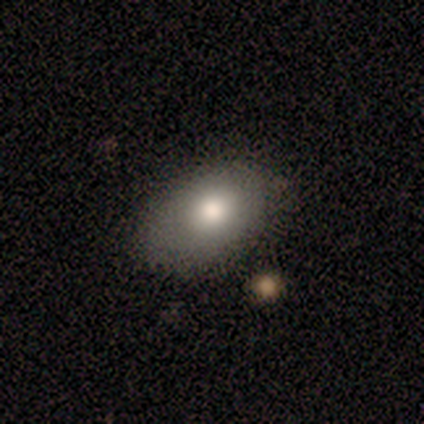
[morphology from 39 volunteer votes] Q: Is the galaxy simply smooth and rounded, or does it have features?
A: smooth — 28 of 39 (72%).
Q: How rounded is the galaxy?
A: in between — 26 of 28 (93%).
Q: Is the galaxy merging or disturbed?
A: none — 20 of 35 (57%).